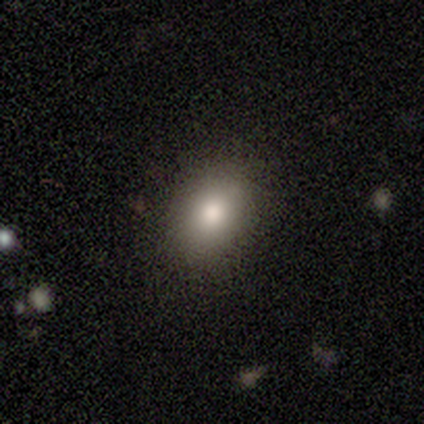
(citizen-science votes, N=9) A smooth galaxy with no disk features (89%) that is in between round and cigar-shaped (62%).

Vote fractions:
- Smooth or featured? smooth: 89% / featured or disk: 11% / star or artifact: 0%
- How rounded? in between: 62% / round: 38% / cigar-shaped: 0%
- Merging? none: 89% / minor disturbance: 11% / major disturbance: 0% / merger: 0%